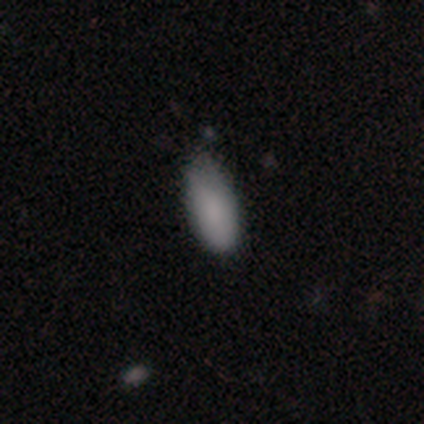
Q: Smooth or featured?
A: smooth (100%)
Q: How rounded?
A: in between (100%)
Q: Merging?
A: none (60%); runner-up: minor disturbance (40%)